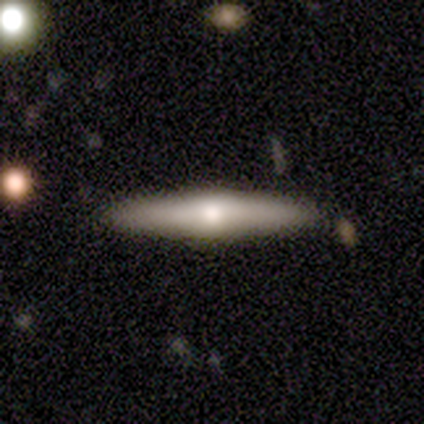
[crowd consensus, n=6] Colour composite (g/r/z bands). It shows a smooth galaxy with no disk features (50%, tied with featured or disk) that is cigar-shaped (100%). Merging: none (100%).